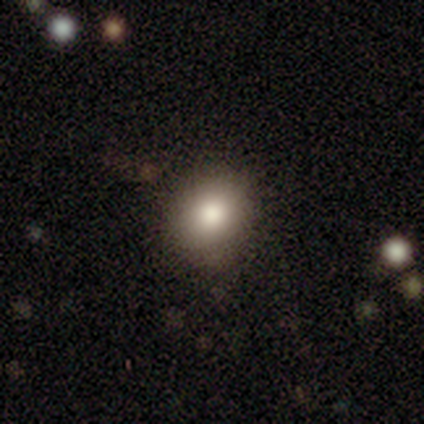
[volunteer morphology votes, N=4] This is likely a smooth galaxy (75%). How rounded: clearly round (100%). Merging: likely none (67%).